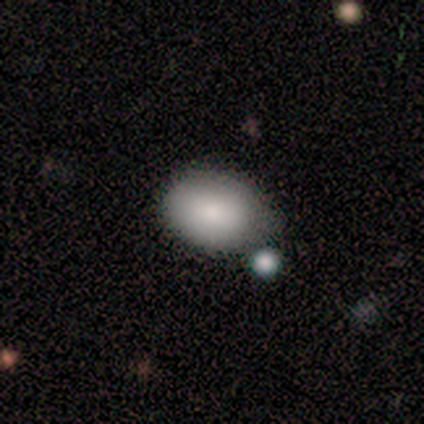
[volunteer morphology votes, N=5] Smooth or featured? 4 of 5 (80%) said smooth. How rounded? 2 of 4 (50%, tied with in between) said round. Merging? 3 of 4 (75%) said none.